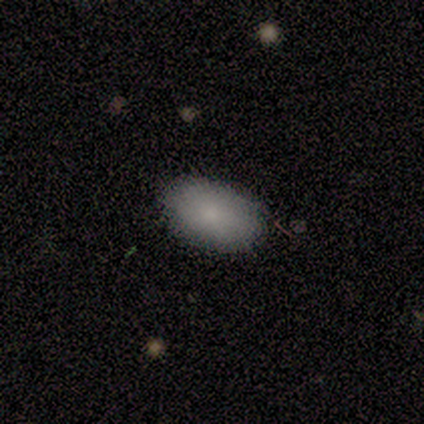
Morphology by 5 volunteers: This appears to be a smooth galaxy with no disk features (100%) that is in between round and cigar-shaped (100%). Merging: none (80%).